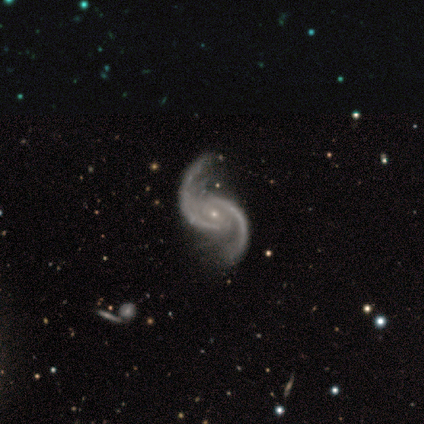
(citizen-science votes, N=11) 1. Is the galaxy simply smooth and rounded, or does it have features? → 100% featured or disk, 0% smooth, 0% star or artifact.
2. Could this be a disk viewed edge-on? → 100% no, 0% yes.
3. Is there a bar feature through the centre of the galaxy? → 73% no, 18% weak, 9% strong.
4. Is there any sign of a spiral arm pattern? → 91% yes, 9% no.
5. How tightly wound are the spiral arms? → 50% loose, 40% medium, 10% tight.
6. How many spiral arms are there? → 100% 2, 0% 1, 0% 3, 0% 4, 0% more than 4, 0% can't tell.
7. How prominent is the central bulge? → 100% small, 0% dominant, 0% large, 0% moderate, 0% none.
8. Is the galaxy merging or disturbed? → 82% none, 9% major disturbance, 9% merger, 0% minor disturbance.